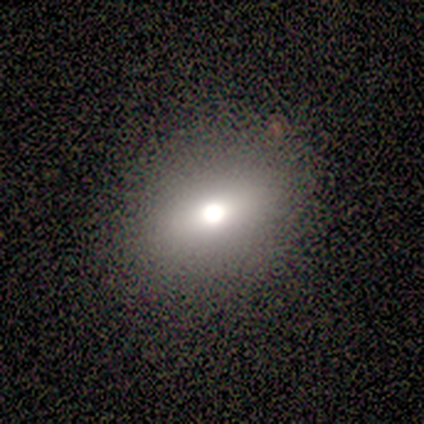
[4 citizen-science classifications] Smooth or featured? 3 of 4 (75%) said featured or disk. Edge-on disk? 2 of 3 (67%) said no. Bar? 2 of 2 (100%) said no. Spiral arms? 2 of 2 (100%) said no. Bulge size? 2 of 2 (100%) said large. Merging? 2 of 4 (50%) said none.